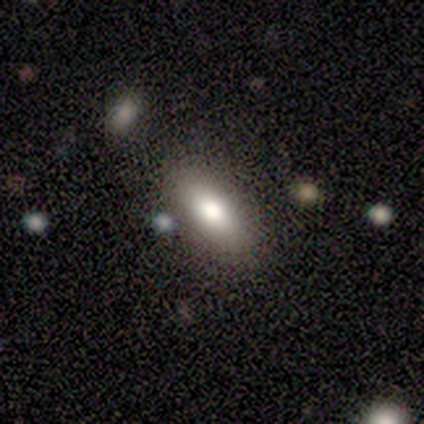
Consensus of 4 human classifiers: Smooth or featured? 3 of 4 (75%) said smooth. How rounded? 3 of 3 (100%) said in between. Merging? 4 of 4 (100%) said none.